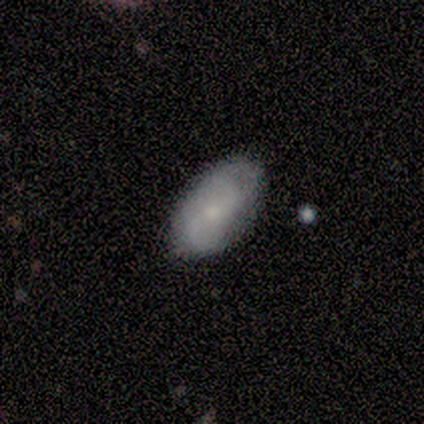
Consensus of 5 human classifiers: A featured or disk galaxy (80%) with no bar (100%), 2 (33%, tied with 3 and can't tell) tight (67%) spiral arms (75%) and a small central bulge (100%).

Vote fractions:
- Smooth or featured? featured or disk: 80% / smooth: 20% / star or artifact: 0%
- Edge-on disk? no: 100% / yes: 0%
- Bar? no: 100% / strong: 0% / weak: 0%
- Spiral arms? yes: 75% / no: 25%
- Spiral winding? tight: 67% / loose: 33% / medium: 0%
- Spiral arm count? 2: 33% (tied) / 3: 33% (tied) / can't tell: 33% (tied) / 1: 0% / 4: 0% / more than 4: 0%
- Bulge size? small: 100% / dominant: 0% / large: 0% / moderate: 0% / none: 0%
- Merging? none: 80% / minor disturbance: 20% / major disturbance: 0% / merger: 0%